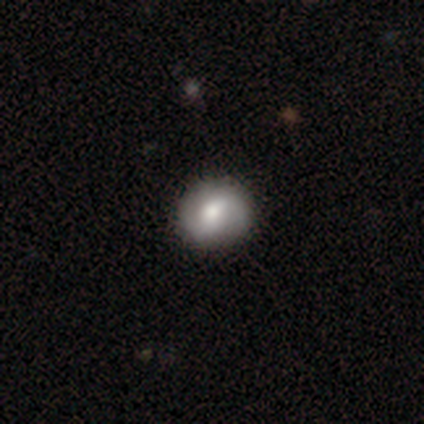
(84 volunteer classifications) A smooth galaxy with no disk features (56%) that is round (79%). Merging: none (94%).